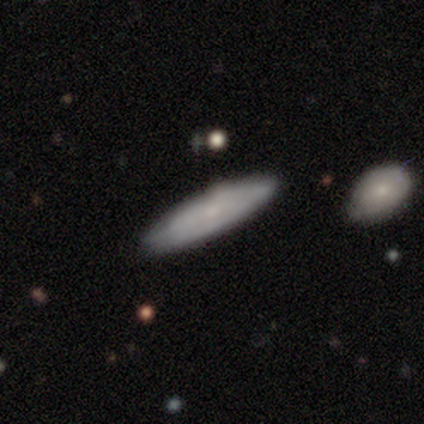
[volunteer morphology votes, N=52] Smooth or featured? smooth (65%)
How rounded? cigar-shaped (53%)
Merging? none (82%)